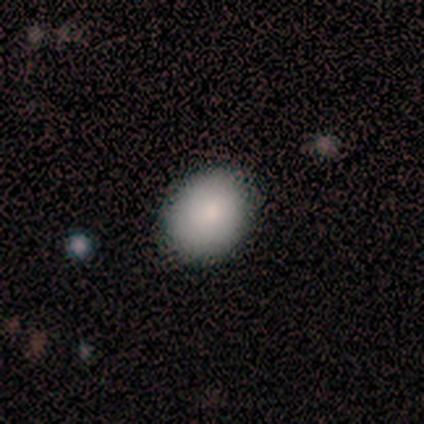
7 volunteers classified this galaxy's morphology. This is possibly a smooth galaxy (57%). How rounded: likely in between (75%). Merging: clearly none (80%).